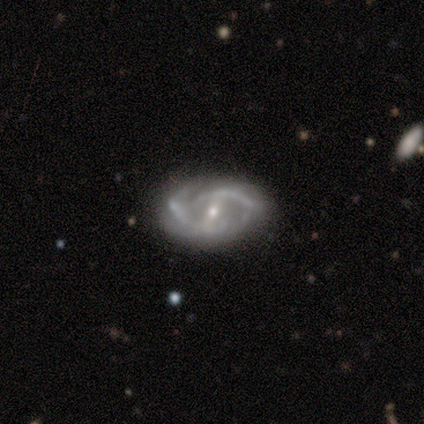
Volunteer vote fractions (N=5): This appears to be a featured or disk galaxy (80%) with a weak bar (75%), 2 (67%) tight (33%, tied with medium and loose) spiral arms (75%) and a small central bulge (100%). Merging: none (80%).